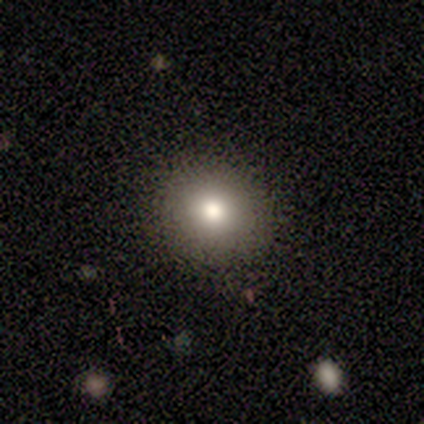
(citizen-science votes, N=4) smooth-or-featured: smooth: 75% | featured or disk: 25% | star or artifact: 0%
  how-rounded: round: 100% | in between: 0% | cigar-shaped: 0%
  merging: none: 100% | minor disturbance: 0% | major disturbance: 0% | merger: 0%